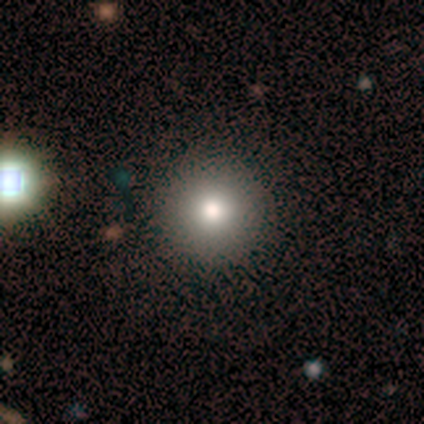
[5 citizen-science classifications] Overall: smooth (80%). How rounded: round (100%). Merging: none (100%).